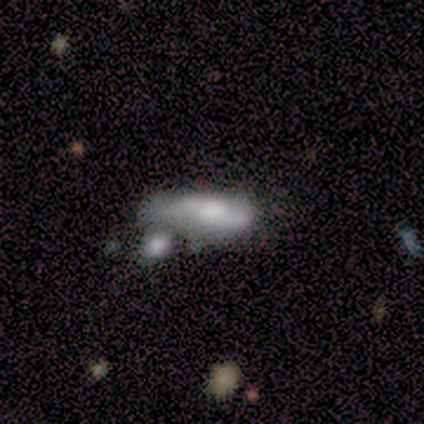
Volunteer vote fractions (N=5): A smooth galaxy with no disk features (80%) that is in between round and cigar-shaped (50%, tied with cigar-shaped). Merging: merger (60%).